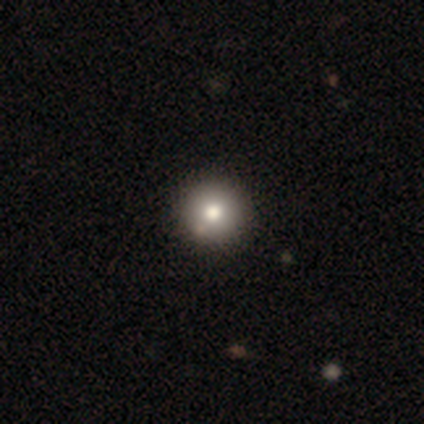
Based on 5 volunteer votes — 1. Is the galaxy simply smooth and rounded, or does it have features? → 80% smooth, 20% featured or disk, 0% star or artifact.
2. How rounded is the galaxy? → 100% round, 0% in between, 0% cigar-shaped.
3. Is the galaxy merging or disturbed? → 60% none, 20% minor disturbance, 20% merger, 0% major disturbance.